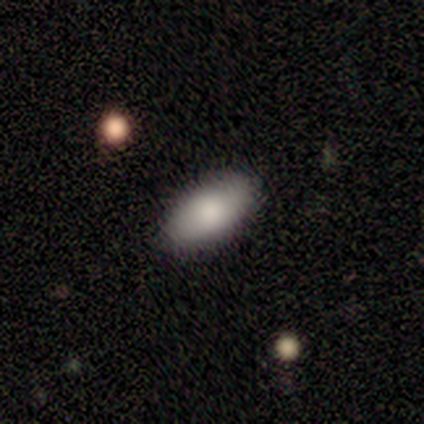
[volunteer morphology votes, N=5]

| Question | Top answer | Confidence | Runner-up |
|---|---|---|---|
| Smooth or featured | featured or disk | 40% | tied: star or artifact (40%) |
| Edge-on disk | no | 100% | — |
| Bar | no | 100% | — |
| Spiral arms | no | 100% | — |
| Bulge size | large | 50% | tied: moderate (50%) |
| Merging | none | 100% | — |